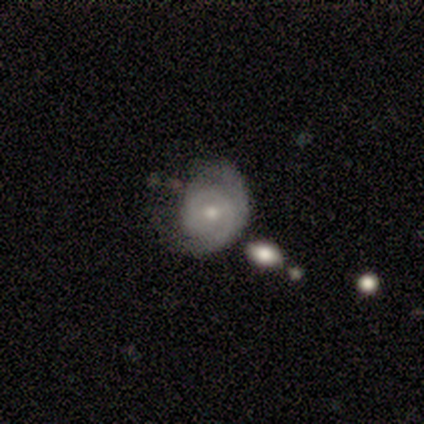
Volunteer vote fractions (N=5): smooth 60%, featured or disk 40%, star or artifact 0%. Down the decision tree: how rounded — round (100%); merging — minor disturbance (40%, tied with major disturbance).